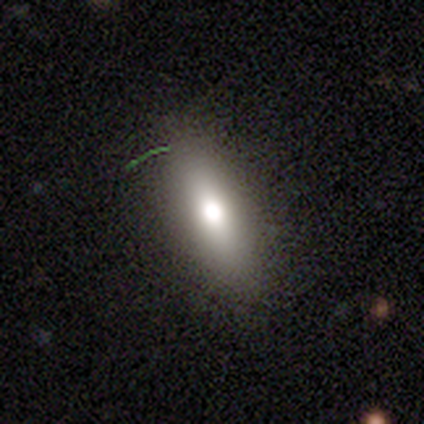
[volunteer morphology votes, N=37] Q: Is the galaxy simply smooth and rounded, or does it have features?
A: smooth — 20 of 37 (54%).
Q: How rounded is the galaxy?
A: in between — 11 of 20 (55%).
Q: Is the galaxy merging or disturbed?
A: none — 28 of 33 (85%).